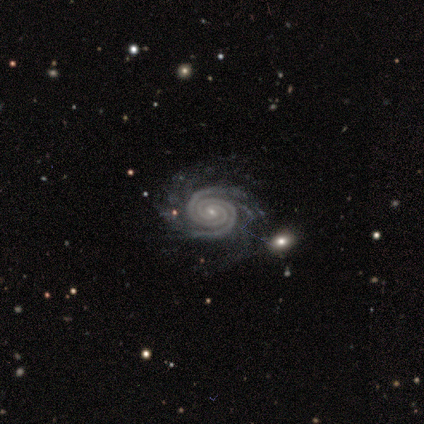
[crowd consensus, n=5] Overall: featured or disk (100%). Edge-on disk: no (80%). Bar: weak (50%; strong 25%). Spiral arms: yes (100%). Spiral arm count: 2 (100%). Spiral winding: tight (100%). Bulge size: small (100%). Merging: none (80%).